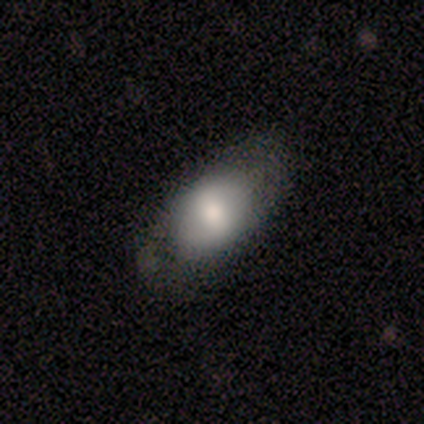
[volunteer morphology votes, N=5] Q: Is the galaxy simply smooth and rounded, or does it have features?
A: smooth — 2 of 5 (40%, tied with featured or disk).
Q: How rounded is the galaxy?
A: in between — 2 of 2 (100%).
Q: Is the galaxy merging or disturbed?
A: none — 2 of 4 (50%).